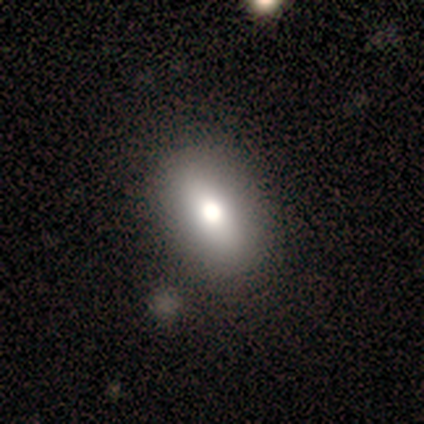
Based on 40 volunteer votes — smooth 80%, featured or disk 10%, star or artifact 10%. Down the decision tree: how rounded — in between (84%); merging — none (69%).